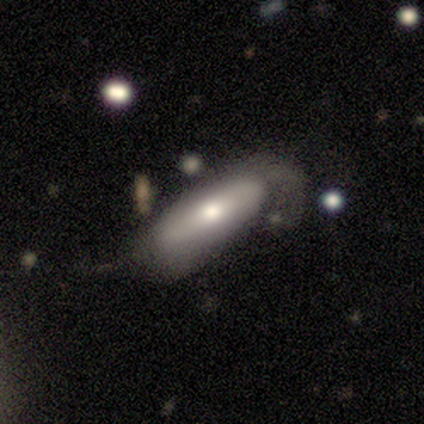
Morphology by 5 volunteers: Smooth or featured?
  - featured or disk: 60% *
  - smooth: 40%
  - star or artifact: 0%
Edge-on disk?
  - no: 67% *
  - yes: 33%
Bar?
  - weak: 50% * (tied)
  - no: 50% * (tied)
  - strong: 0%
Spiral arms?
  - yes: 100% *
  - no: 0%
Spiral winding?
  - medium: 50% * (tied)
  - loose: 50% * (tied)
  - tight: 0%
Spiral arm count?
  - 2: 50% * (tied)
  - can't tell: 50% * (tied)
  - 1: 0%
  - 3: 0%
  - 4: 0%
  - more than 4: 0%
Bulge size?
  - moderate: 100% *
  - dominant: 0%
  - large: 0%
  - small: 0%
  - none: 0%
Merging?
  - minor disturbance: 60% *
  - none: 20%
  - major disturbance: 20%
  - merger: 0%